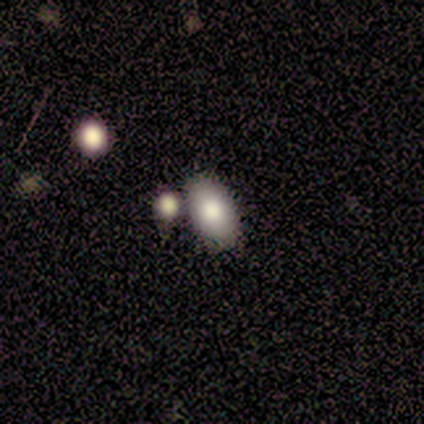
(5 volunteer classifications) Morphology: type=smooth (80%); roundness=in between (100%); merging=none (60%).